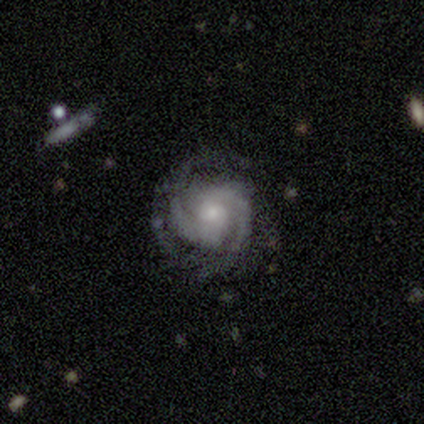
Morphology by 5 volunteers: Smooth or featured? featured or disk (100%)
Edge-on disk? no (100%)
Bar? weak (40%, tied with no)
Spiral arms? yes (100%)
Spiral winding? tight (40%, tied with loose)
Spiral arm count? 2 (60%)
Bulge size? small (60%)
Merging? none (80%)